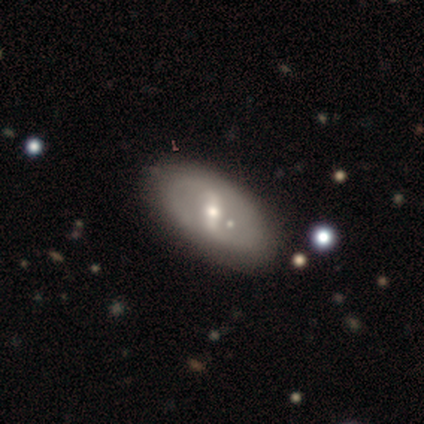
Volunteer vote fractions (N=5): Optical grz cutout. It shows a featured or disk galaxy (60%) with no bar (100%), no spiral arms (100%) and a small central bulge (100%). Merging: none (80%).